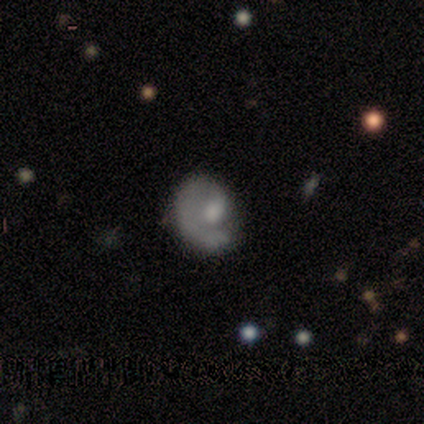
Morphology: type=featured or disk (50%); edge-on=no (100%); bar=no (100%); spiral arms=yes (50%, tied with no); winding=medium (100%); arm count=1 (100%); bulge=moderate (50%, tied with small); merging=none (33%, tied with major disturbance and merger).